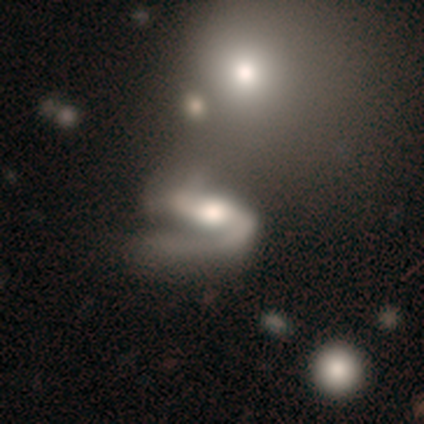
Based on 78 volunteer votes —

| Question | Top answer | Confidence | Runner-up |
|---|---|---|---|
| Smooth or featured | featured or disk | 73% | smooth (22%) |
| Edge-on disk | no | 93% | yes (7%) |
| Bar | strong | 55% | weak (30%) |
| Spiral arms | yes | 85% | no (15%) |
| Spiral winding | loose | 51% | medium (38%) |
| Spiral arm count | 2 | 76% | 1 (22%) |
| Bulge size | moderate | 58% | large (25%) |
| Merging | merger | 22% | major disturbance (20%) |